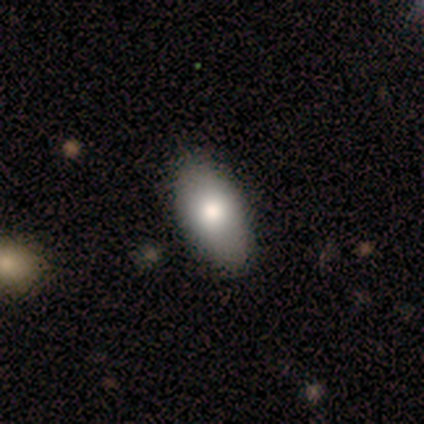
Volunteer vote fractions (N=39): Volunteers were most divided on "merging": none: 81%, minor disturbance: 19%, major disturbance: 0%, merger: 0%. More confident: how rounded — in between (94%); smooth or featured — smooth (79%).